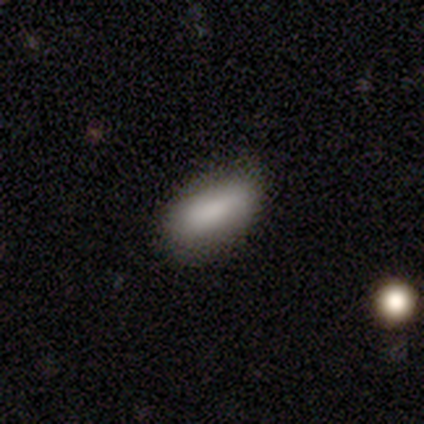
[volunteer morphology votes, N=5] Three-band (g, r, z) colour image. It shows a smooth galaxy with no disk features (80%) that is in between round and cigar-shaped (100%). Merging: none (100%).